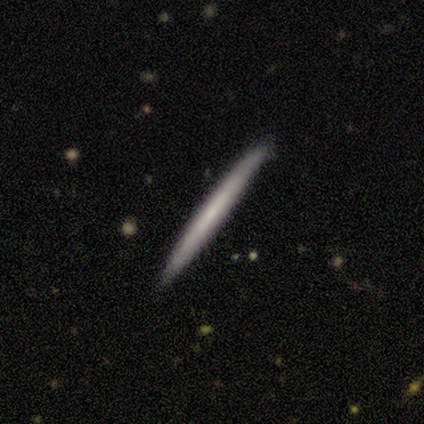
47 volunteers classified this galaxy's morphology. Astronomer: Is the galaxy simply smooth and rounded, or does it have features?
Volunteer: smooth — 55% (runner-up: featured or disk, 40%).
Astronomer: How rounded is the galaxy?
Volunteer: cigar-shaped — 100%.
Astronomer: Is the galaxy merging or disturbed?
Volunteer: none — 89%.